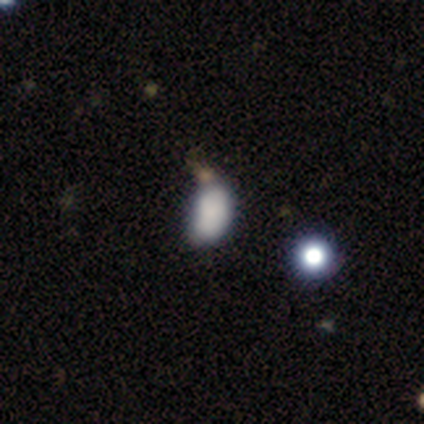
Smooth or featured? smooth (80%)
How rounded? in between (75%)
Merging? none (50%)